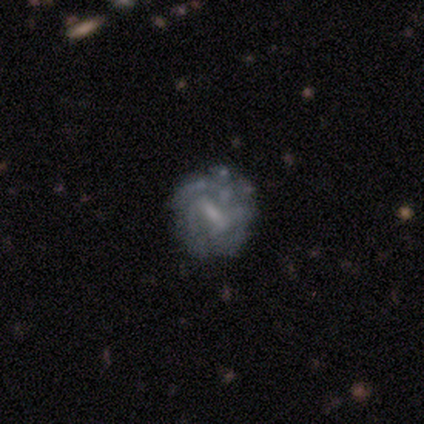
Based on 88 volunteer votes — featured or disk 81%, star or artifact 10%, smooth 9%. Down the decision tree: edge-on disk — no (97%); bar — weak (48%); spiral arms — yes (72%); spiral arm count — can't tell (50%); spiral winding — tight (52%); bulge size — small (48%); merging — none (70%).